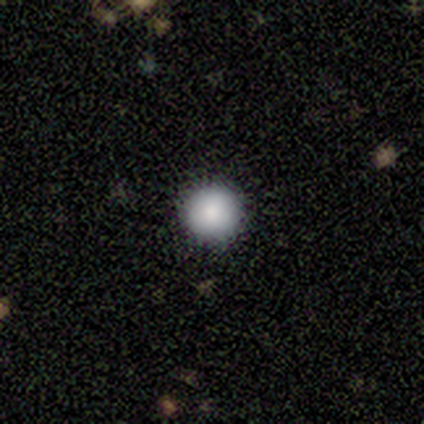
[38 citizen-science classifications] A smooth galaxy with no disk features (79%) that is round (97%). Merging: none (97%).